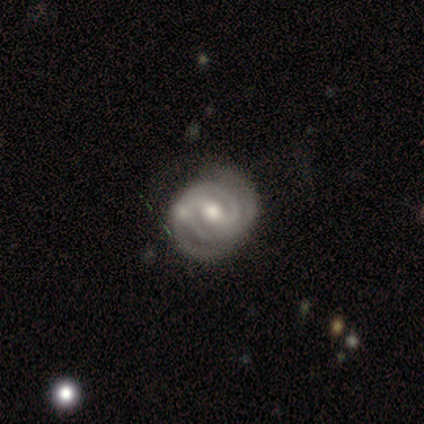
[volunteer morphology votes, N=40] A featured or disk galaxy (92%) with a weak bar (53%), 2 (81%) tight (75%) spiral arms (100%) and a moderate central bulge (81%).

Vote fractions:
- Smooth or featured? featured or disk: 92% / smooth: 5% / star or artifact: 2%
- Edge-on disk? no: 97% / yes: 3%
- Bar? weak: 53% / strong: 28% / no: 19%
- Spiral arms? yes: 100% / no: 0%
- Spiral winding? tight: 75% / medium: 25% / loose: 0%
- Spiral arm count? 2: 81% / 3: 8% / 4: 6% / 1: 3% / can't tell: 3% / more than 4: 0%
- Bulge size? moderate: 81% / small: 17% / large: 3% / dominant: 0% / none: 0%
- Merging? none: 72% / minor disturbance: 15% / merger: 8% / major disturbance: 5%